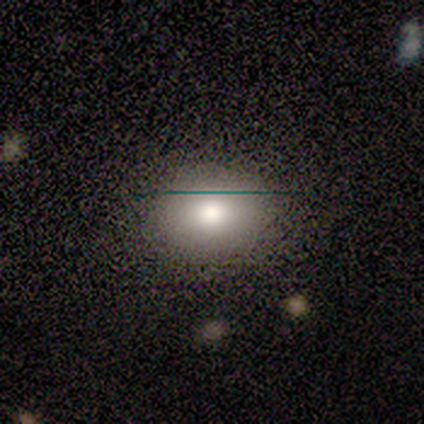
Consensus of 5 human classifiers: Volunteers were most divided on "smooth or featured" (2-way tie): featured or disk: 40%, star or artifact: 40%, smooth: 20%; "edge-on disk" (2-way tie): yes: 50%, no: 50%. More confident: edge-on bulge — none (100%); merging — none (100%).